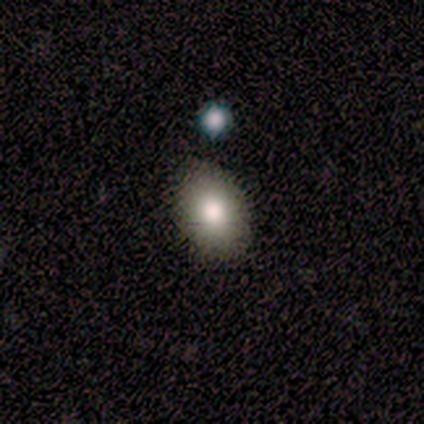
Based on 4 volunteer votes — Morphology: type=smooth (75%); roundness=in between (67%); merging=none (75%).